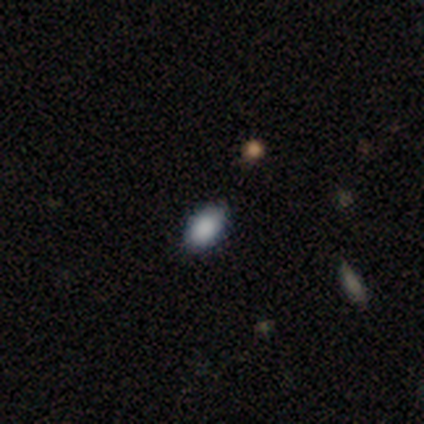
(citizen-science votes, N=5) Smooth or featured? 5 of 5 (100%) said smooth. How rounded? 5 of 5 (100%) said in between. Merging? 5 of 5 (100%) said none.